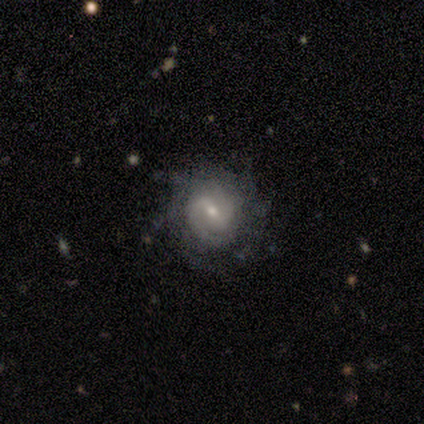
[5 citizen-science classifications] Morphology: type=featured or disk (80%); edge-on=no (100%); bar=weak (50%); spiral arms=yes (75%); winding=tight (67%); arm count=1 (33%, tied with 2 and more than 4); bulge=moderate (75%); merging=none (100%).